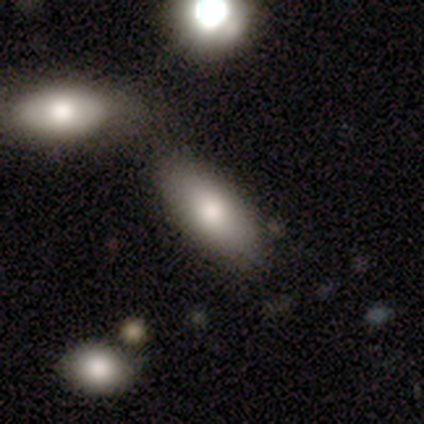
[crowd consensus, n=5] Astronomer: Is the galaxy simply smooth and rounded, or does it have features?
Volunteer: smooth — 100%.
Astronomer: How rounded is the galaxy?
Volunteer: in between — 60% (runner-up: cigar-shaped, 40%).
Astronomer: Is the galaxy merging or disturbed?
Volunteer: none — 80%.